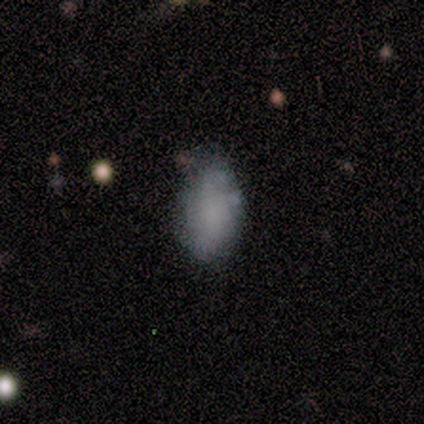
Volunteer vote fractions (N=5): Smooth or featured?
  - smooth: 100% *
  - featured or disk: 0%
  - star or artifact: 0%
How rounded?
  - in between: 80% *
  - round: 20%
  - cigar-shaped: 0%
Merging?
  - minor disturbance: 80% *
  - none: 20%
  - major disturbance: 0%
  - merger: 0%